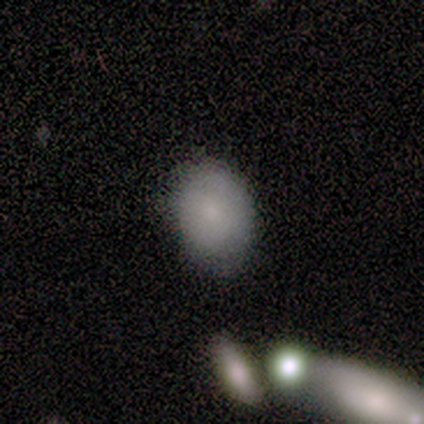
Overall: smooth (83%). How rounded: in between (60%; round 40%). Merging: none (67%; merger 33%).